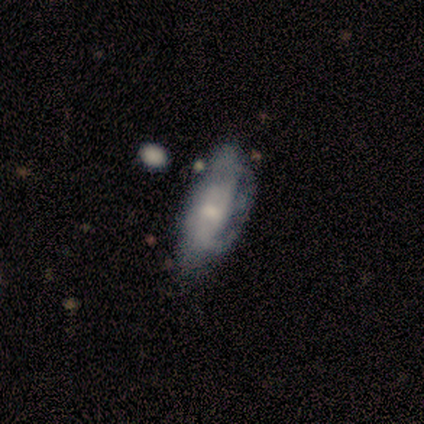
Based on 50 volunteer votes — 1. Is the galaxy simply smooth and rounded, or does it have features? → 58% featured or disk, 38% smooth, 4% star or artifact.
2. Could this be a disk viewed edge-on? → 90% no, 10% yes.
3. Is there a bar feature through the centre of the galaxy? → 65% no, 31% weak, 4% strong.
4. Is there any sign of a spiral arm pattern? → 69% yes, 31% no.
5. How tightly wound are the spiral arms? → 39% medium, 33% tight, 28% loose.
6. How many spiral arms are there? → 61% can't tell, 22% 2, 17% 1, 0% 3, 0% 4, 0% more than 4.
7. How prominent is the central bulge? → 50% small, 46% moderate, 4% none, 0% dominant, 0% large.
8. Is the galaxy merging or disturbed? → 52% none, 25% major disturbance, 23% minor disturbance, 0% merger.